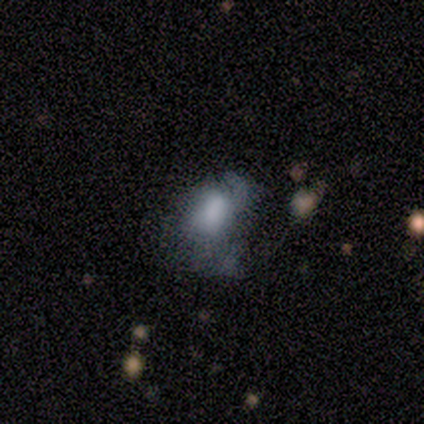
A smooth galaxy with no disk features (80%) that is in between round and cigar-shaped (100%).

Vote fractions:
- Smooth or featured? smooth: 80% / featured or disk: 20% / star or artifact: 0%
- How rounded? in between: 100% / round: 0% / cigar-shaped: 0%
- Merging? major disturbance: 80% / none: 20% / minor disturbance: 0% / merger: 0%